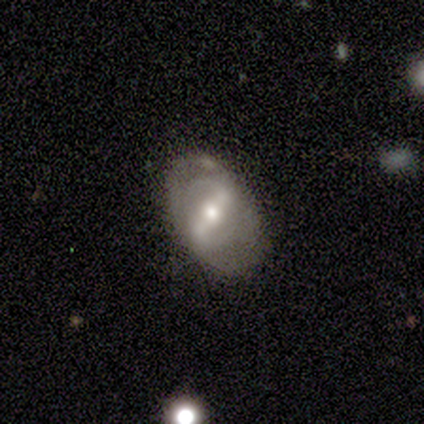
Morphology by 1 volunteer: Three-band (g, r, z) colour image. It shows a featured or disk galaxy (100%) with a strong bar (100%), 2 (100%) loose (100%) spiral arms (100%) and a moderate central bulge (100%). Merging: none (100%).